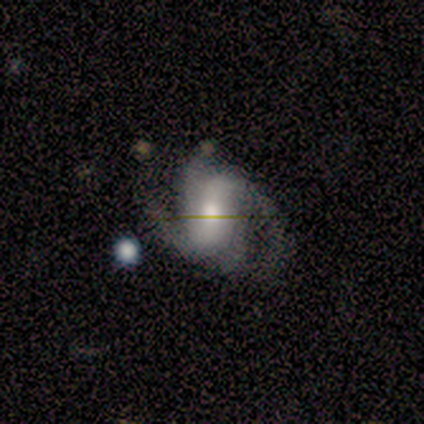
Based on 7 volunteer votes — smooth_or_featured: featured or disk (p=1.00)
disk_edge_on: no (p=1.00)
bar: no (p=0.43) [alt: strong p=0.29]
has_spiral_arms: yes (p=1.00)
spiral_winding: medium (p=0.71) [alt: loose p=0.29]
spiral_arm_count: 2 (p=0.57) [alt: 4 p=0.29]
bulge_size: small (p=0.57) [alt: moderate p=0.29]
merging: none (p=0.71) [alt: minor disturbance p=0.29]